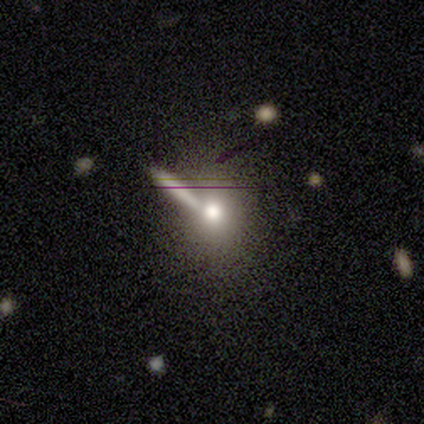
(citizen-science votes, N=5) This is clearly a smooth galaxy (80%). How rounded: clearly round (100%). Merging: clearly none (80%).